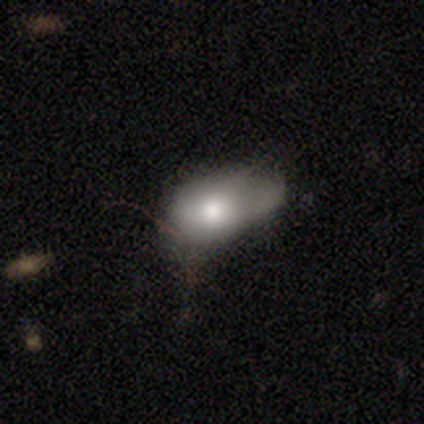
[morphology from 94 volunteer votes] smooth 79%, featured or disk 18%, star or artifact 3%. Down the decision tree: how rounded — in between (88%); merging — minor disturbance (43%).